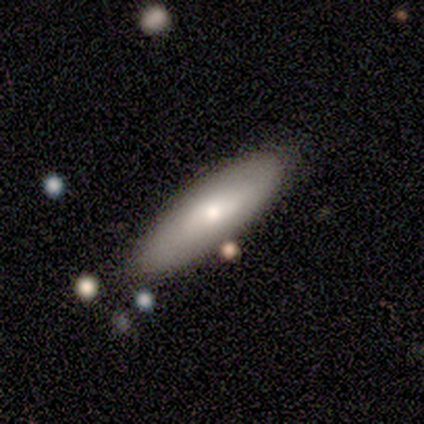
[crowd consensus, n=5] smooth 80%, featured or disk 20%, star or artifact 0%. Down the decision tree: how rounded — cigar-shaped (100%); merging — none (100%).